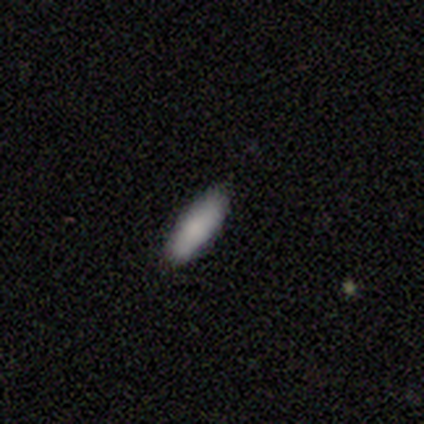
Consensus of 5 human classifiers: Morphology: type=smooth (100%); roundness=cigar-shaped (80%); merging=none (100%).